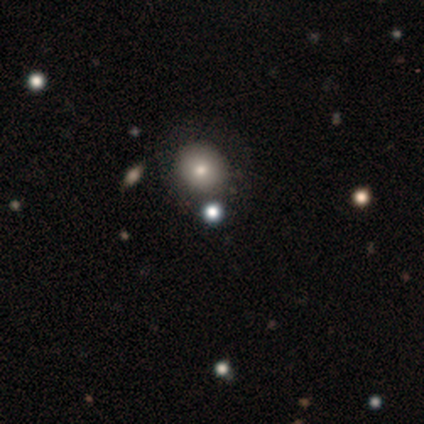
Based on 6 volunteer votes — A smooth galaxy with no disk features (50%, tied with star or artifact) that is round (100%). Merging: none (100%).